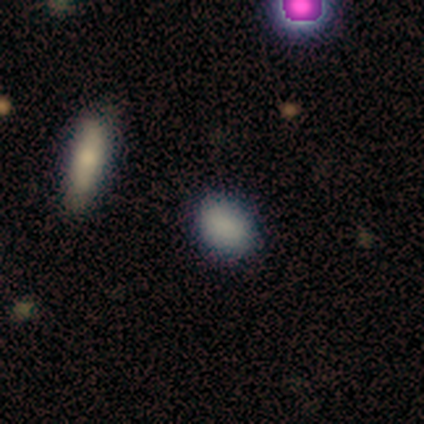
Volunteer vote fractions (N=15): This appears to be a smooth galaxy with no disk features (87%) that is in between round and cigar-shaped (69%). Merging: none (92%).